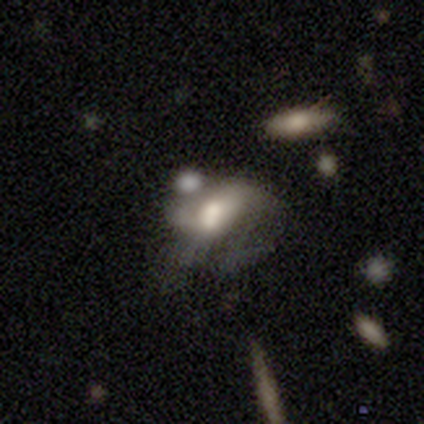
This is likely a smooth galaxy (60%). How rounded: clearly in between (100%). Merging: possibly major disturbance (50%, tied with merger).